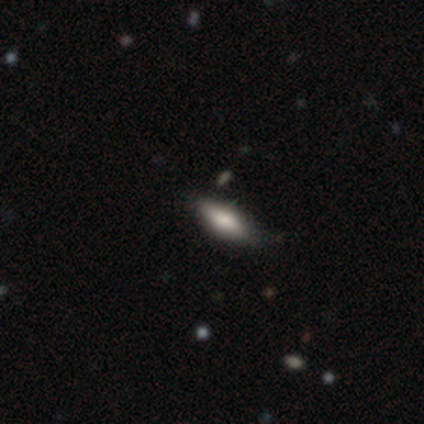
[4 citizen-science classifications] smooth 75%, featured or disk 25%, star or artifact 0%. Down the decision tree: how rounded — in between (67%); merging — none (75%).